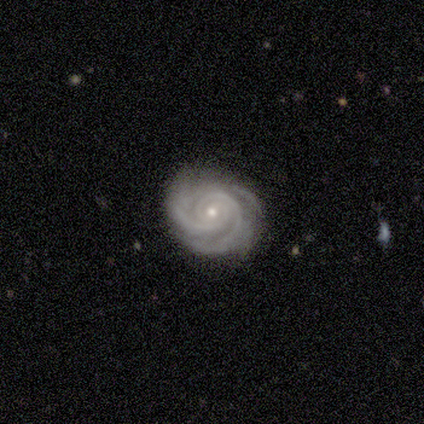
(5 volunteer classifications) Smooth or featured? 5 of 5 (100%) said featured or disk. Edge-on disk? 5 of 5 (100%) said no. Bar? 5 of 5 (100%) said no. Spiral arms? 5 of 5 (100%) said yes. Spiral winding? 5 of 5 (100%) said tight. Spiral arm count? 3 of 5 (60%) said 2. Bulge size? 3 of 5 (60%) said moderate. Merging? 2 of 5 (40%, tied with major disturbance) said none.